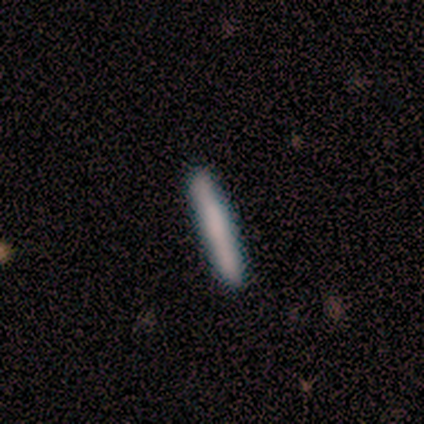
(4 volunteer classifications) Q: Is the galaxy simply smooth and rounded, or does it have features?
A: smooth — 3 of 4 (75%).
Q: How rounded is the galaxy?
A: cigar-shaped — 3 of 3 (100%).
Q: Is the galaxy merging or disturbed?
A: none — 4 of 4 (100%).